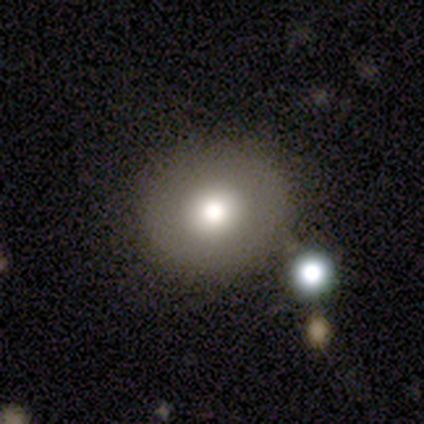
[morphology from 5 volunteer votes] A smooth galaxy with no disk features (60%) that is round (100%). Merging: none (60%).